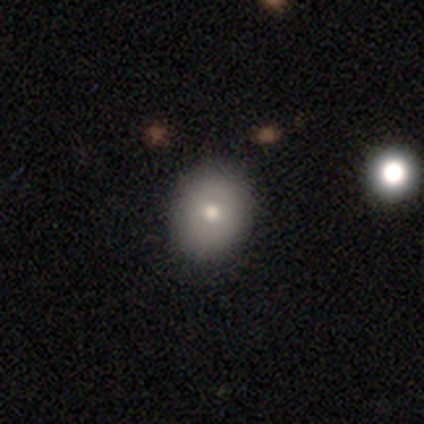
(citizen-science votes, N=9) Smooth or featured? smooth (44%)
How rounded? in between (75%)
Merging? none (100%)